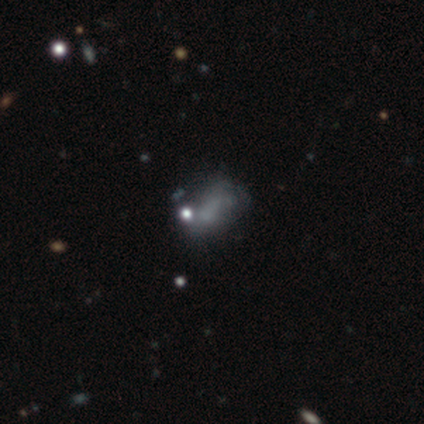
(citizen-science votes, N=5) A featured or disk galaxy (60%) with no bar (100%), no spiral arms (100%) and no central bulge (100%). Merging: none (60%).